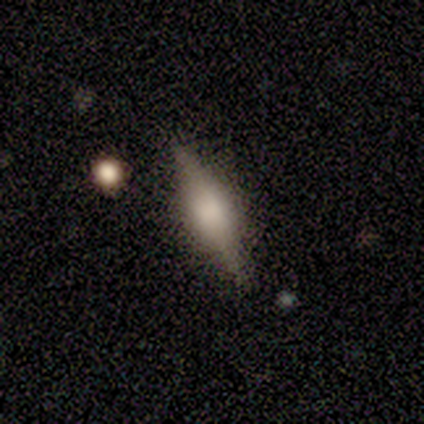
A featured or disk galaxy (100%) viewed edge-on (100%) with a rounded central bulge (60%).

Vote fractions:
- Smooth or featured? featured or disk: 100% / smooth: 0% / star or artifact: 0%
- Edge-on disk? yes: 100% / no: 0%
- Edge-on bulge? rounded: 60% / boxy: 40% / none: 0%
- Merging? none: 80% / minor disturbance: 20% / major disturbance: 0% / merger: 0%